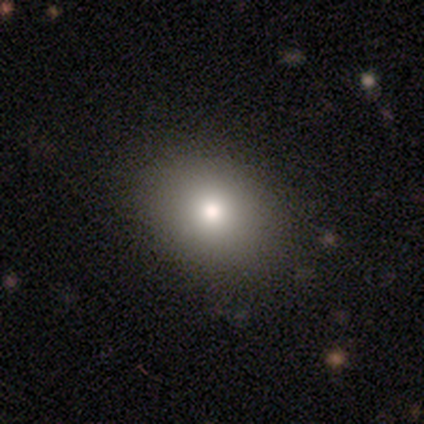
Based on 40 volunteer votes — Overall: smooth (82%). How rounded: round (52%; in between 48%). Merging: none (85%).